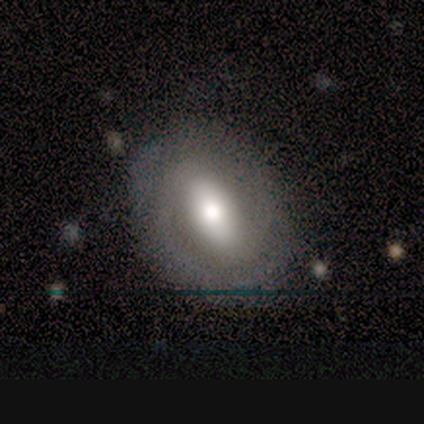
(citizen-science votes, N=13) smooth_or_featured: smooth (p=0.54) [alt: featured or disk p=0.46]
how_rounded: in between (p=1.00)
merging: none (p=0.85) [alt: minor disturbance p=0.15]